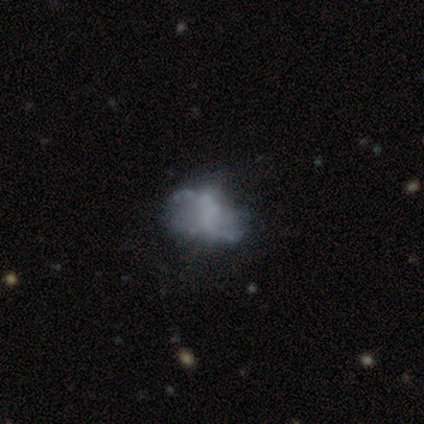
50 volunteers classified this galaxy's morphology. Smooth or featured: featured or disk — 60% (smooth — 30%)
Edge-on disk: no — 100%
Bar: no — 53% (weak — 37%)
Spiral arms: yes — 50% (tied with no — 50%)
Spiral winding: loose — 67% (medium — 33%)
Spiral arm count: 2 — 87% (can't tell — 13%)
Bulge size: none — 83% (small — 13%)
Merging: none — 42% (minor disturbance — 40%)